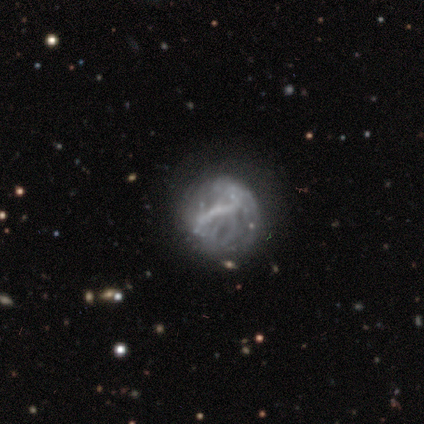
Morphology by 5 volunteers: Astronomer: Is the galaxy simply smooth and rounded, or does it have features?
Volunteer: featured or disk — 80%.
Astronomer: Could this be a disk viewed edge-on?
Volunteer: no — 100%.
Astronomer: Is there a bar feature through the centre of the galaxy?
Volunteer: strong — 50%, tied with no at 50%.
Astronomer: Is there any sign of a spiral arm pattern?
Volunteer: yes — 50%, tied with no at 50%.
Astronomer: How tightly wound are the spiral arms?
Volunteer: tight — 50%, tied with loose at 50%.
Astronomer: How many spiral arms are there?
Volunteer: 2 — 50%, tied with more than 4 at 50%.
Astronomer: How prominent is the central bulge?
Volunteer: small — 50%, tied with none at 50%.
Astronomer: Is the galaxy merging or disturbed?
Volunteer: none — 60%.